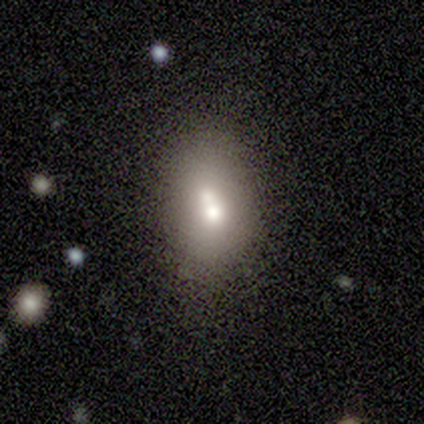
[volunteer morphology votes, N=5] Overall: smooth (80%). How rounded: in between (75%). Merging: merger (40%; none 20%).